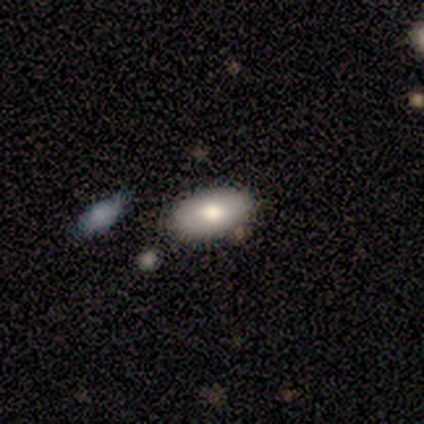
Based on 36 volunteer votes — smooth-or-featured: smooth: 81% | featured or disk: 11% | star or artifact: 8%
  how-rounded: in between: 93% | round: 3% | cigar-shaped: 3%
  merging: none: 85% | merger: 9% | minor disturbance: 6% | major disturbance: 0%